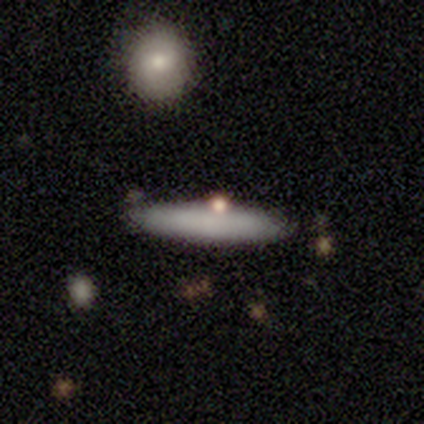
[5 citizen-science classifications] Smooth or featured? 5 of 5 (100%) said smooth. How rounded? 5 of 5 (100%) said cigar-shaped. Merging? 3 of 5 (60%) said none.